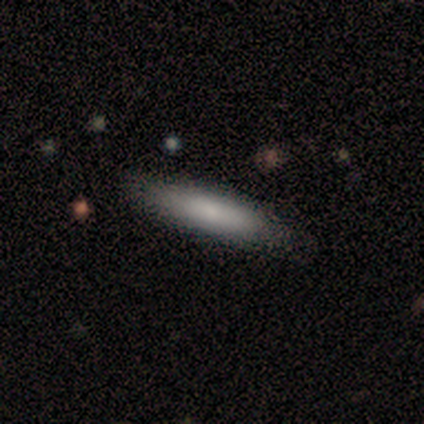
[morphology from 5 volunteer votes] A smooth galaxy with no disk features (60%) that is cigar-shaped (100%).

Vote fractions:
- Smooth or featured? smooth: 60% / featured or disk: 20% / star or artifact: 20%
- How rounded? cigar-shaped: 100% / round: 0% / in between: 0%
- Merging? none: 75% / minor disturbance: 25% / major disturbance: 0% / merger: 0%